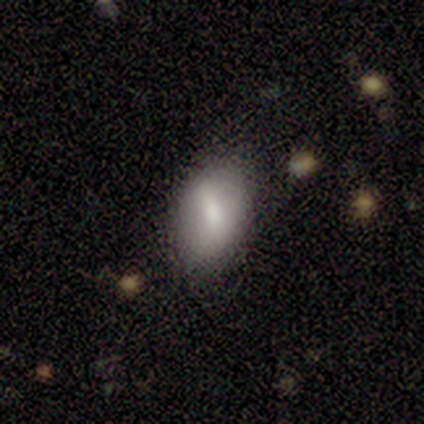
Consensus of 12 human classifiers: A smooth galaxy with no disk features (83%) that is in between round and cigar-shaped (90%). Merging: none (50%, tied with minor disturbance).